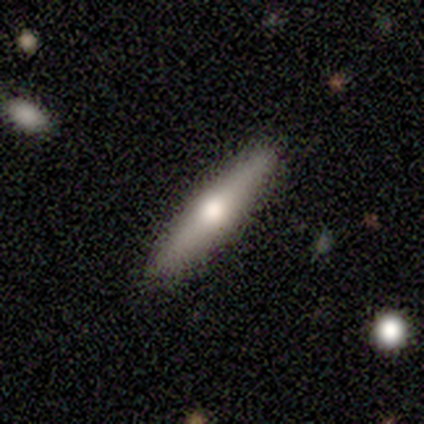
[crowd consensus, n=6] A smooth galaxy with no disk features (83%) that is cigar-shaped (100%). Merging: none (100%).